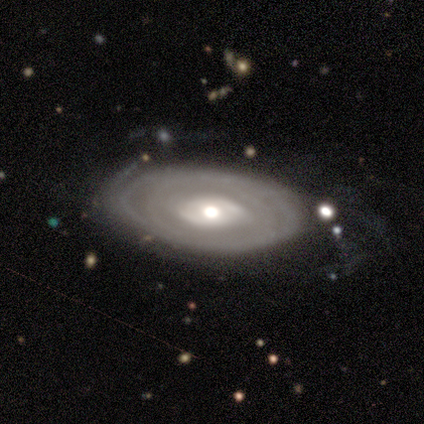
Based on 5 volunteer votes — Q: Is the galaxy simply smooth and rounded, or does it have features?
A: featured or disk — 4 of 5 (80%).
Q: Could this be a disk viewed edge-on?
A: no — 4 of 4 (100%).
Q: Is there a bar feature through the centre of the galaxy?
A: weak — 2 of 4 (50%, tied with no).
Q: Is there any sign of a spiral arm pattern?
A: yes — 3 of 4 (75%).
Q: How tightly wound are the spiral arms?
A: tight — 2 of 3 (67%).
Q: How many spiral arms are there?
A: can't tell — 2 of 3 (67%).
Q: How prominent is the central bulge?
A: moderate — 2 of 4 (50%).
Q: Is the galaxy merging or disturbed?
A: none — 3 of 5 (60%).